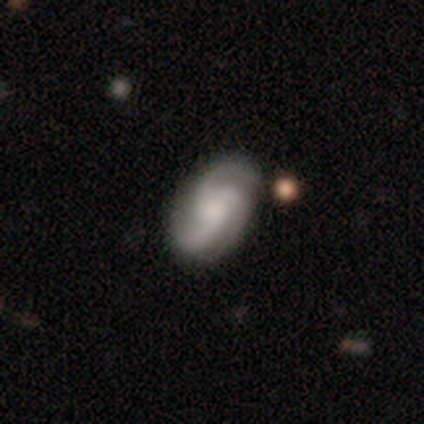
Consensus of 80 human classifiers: This is clearly a featured or disk galaxy (89%). It is clearly not viewed edge-on (96%). Bar: likely no (72%). Spiral arm pattern: clearly yes (99%). Spiral arm count: clearly 3 (87%). Spiral winding: possibly medium (52%). Central bulge: marginally moderate (38%). Merging: marginally none (41%).